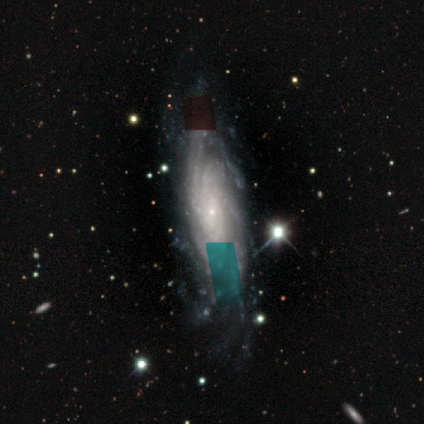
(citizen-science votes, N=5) smooth_or_featured: featured or disk (p=0.80) [alt: star or artifact p=0.20]
disk_edge_on: no (p=1.00)
bar: no (p=1.00)
has_spiral_arms: yes (p=1.00)
spiral_winding: tight (p=0.75) [alt: loose p=0.25]
spiral_arm_count: 2 (p=0.50) [alt: 3 p=0.25]
bulge_size: small (p=1.00)
merging: none (p=0.50) [tied with: major disturbance p=0.50]